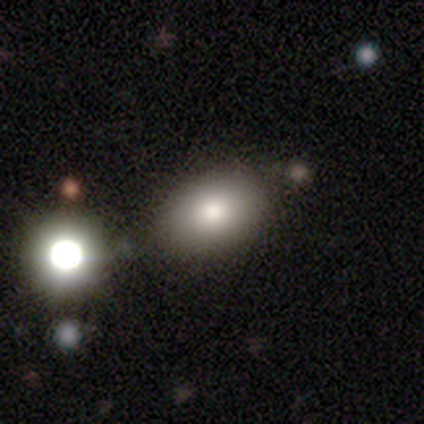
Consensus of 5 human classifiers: smooth-or-featured: smooth: 80% | featured or disk: 20% | star or artifact: 0%
  how-rounded: in between: 100% | round: 0% | cigar-shaped: 0%
  merging: none: 100% | minor disturbance: 0% | major disturbance: 0% | merger: 0%